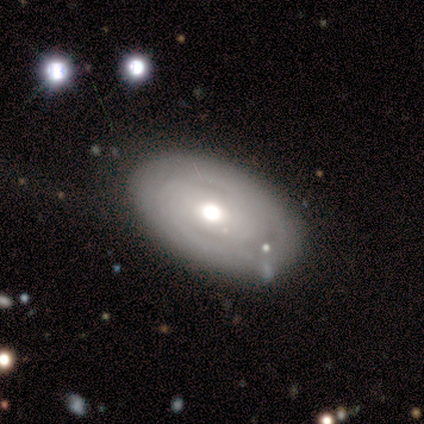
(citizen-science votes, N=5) Morphology: type=featured or disk (100%); edge-on=no (80%); bar=no (75%); spiral arms=yes (50%, tied with no); winding=tight (50%, tied with medium); arm count=can't tell (100%); bulge=moderate (75%); merging=none (60%).